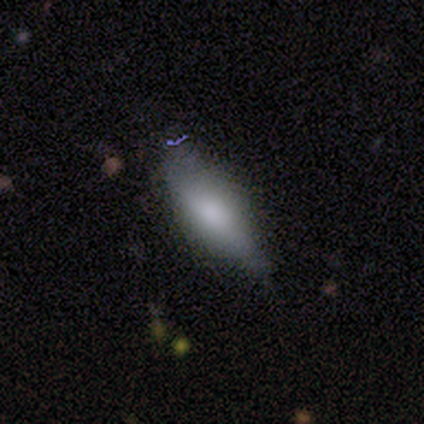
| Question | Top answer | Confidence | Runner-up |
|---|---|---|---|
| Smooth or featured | smooth | 73% | featured or disk (27%) |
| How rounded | in between | 62% | cigar-shaped (38%) |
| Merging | none | 64% | minor disturbance (36%) |